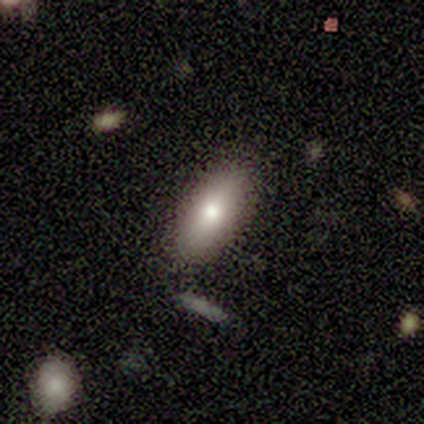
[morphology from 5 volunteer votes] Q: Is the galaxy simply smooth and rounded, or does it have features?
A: smooth — 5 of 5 (100%).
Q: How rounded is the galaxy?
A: in between — 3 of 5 (60%).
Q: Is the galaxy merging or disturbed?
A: none — 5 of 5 (100%).